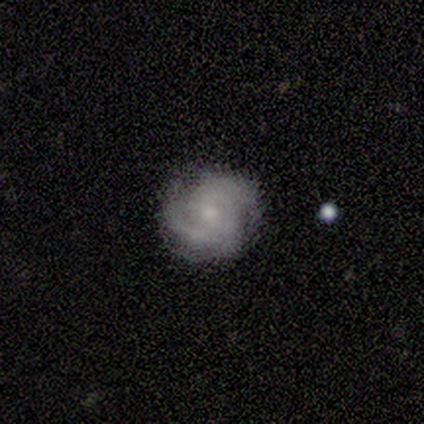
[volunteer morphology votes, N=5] This is likely a featured or disk galaxy (60%). It is clearly not viewed edge-on (100%). Bar: likely no (67%). Spiral arm pattern: clearly yes (100%). Spiral arm count: likely can't tell (67%). Spiral winding: likely medium (67%). Central bulge: likely moderate (67%). Merging: clearly none (80%).